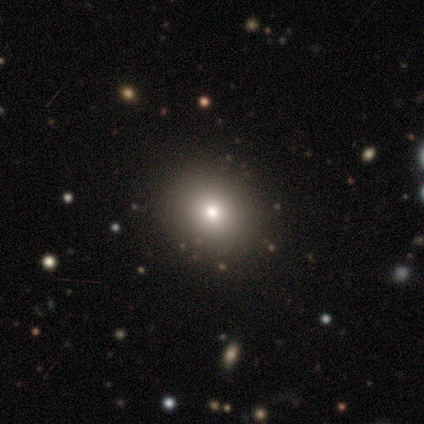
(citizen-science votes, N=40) A smooth galaxy with no disk features (78%) that is round (61%). Merging: none (73%).